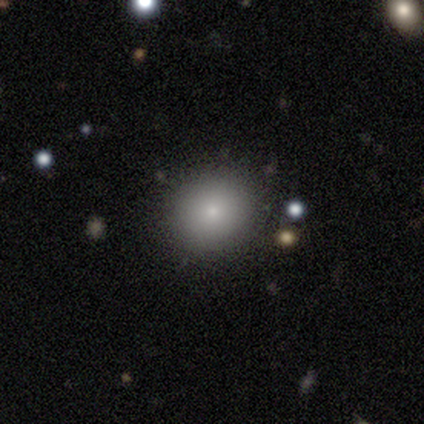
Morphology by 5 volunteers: Smooth or featured? smooth (80%)
How rounded? round (75%)
Merging? none (100%)